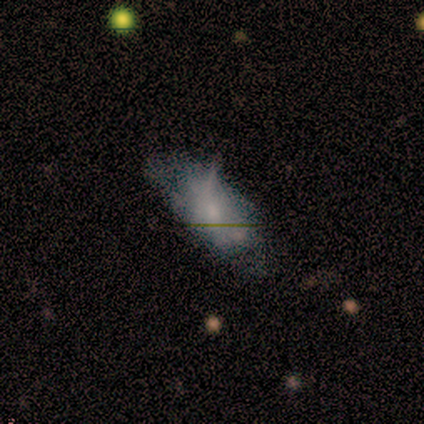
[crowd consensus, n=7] Q: Smooth or featured?
A: smooth (71%); runner-up: featured or disk (29%)
Q: How rounded?
A: in between (100%)
Q: Merging?
A: minor disturbance (57%); runner-up: none (29%)